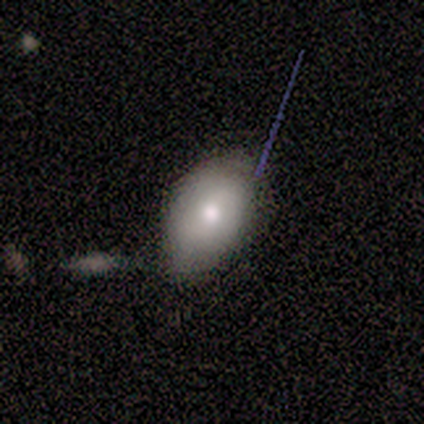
Smooth or featured?
  - smooth: 100% *
  - featured or disk: 0%
  - star or artifact: 0%
How rounded?
  - round: 75% *
  - in between: 25%
  - cigar-shaped: 0%
Merging?
  - none: 50% *
  - minor disturbance: 25%
  - merger: 25%
  - major disturbance: 0%